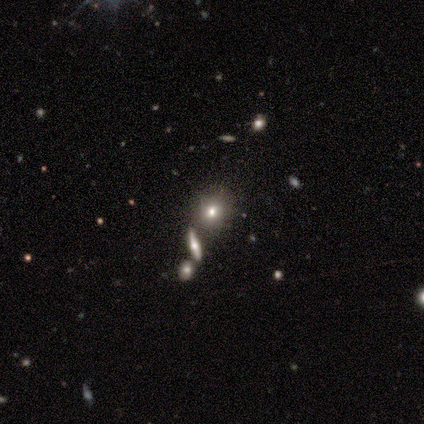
Q: Smooth or featured?
A: smooth (80%); runner-up: featured or disk (20%)
Q: How rounded?
A: in between (75%); runner-up: round (25%)
Q: Merging?
A: minor disturbance (40%); runner-up: none (20%)